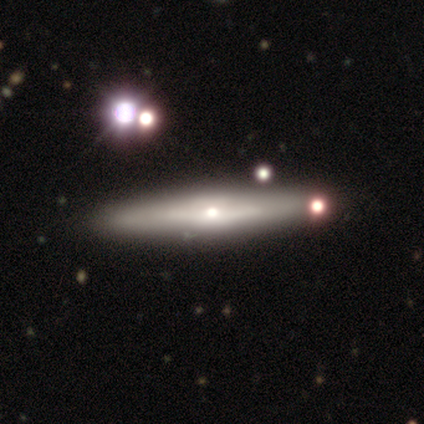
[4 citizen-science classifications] Smooth or featured: featured or disk — 75% (smooth — 25%)
Edge-on disk: yes — 100%
Edge-on bulge: rounded — 100%
Merging: none — 100%